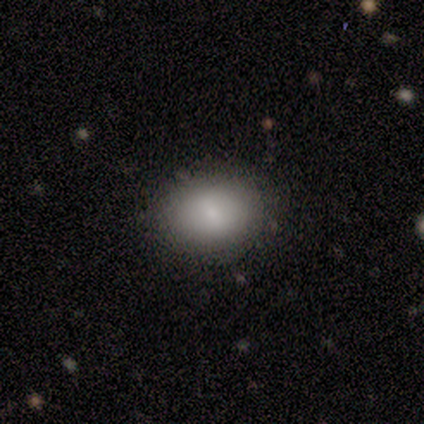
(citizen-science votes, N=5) smooth_or_featured: smooth (p=0.60) [alt: star or artifact p=0.40]
how_rounded: in between (p=0.67) [alt: round p=0.33]
merging: none (p=1.00)